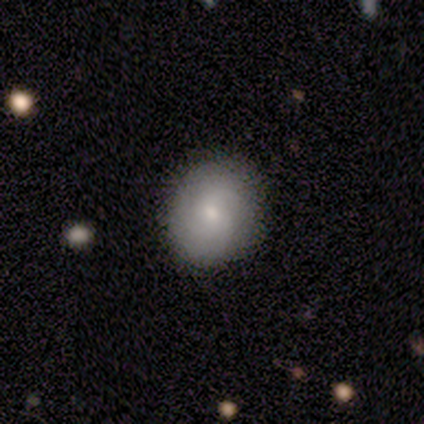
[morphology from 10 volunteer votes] A smooth galaxy with no disk features (60%) that is round (67%).

Vote fractions:
- Smooth or featured? smooth: 60% / featured or disk: 30% / star or artifact: 10%
- How rounded? round: 67% / in between: 33% / cigar-shaped: 0%
- Merging? none: 89% / minor disturbance: 11% / major disturbance: 0% / merger: 0%